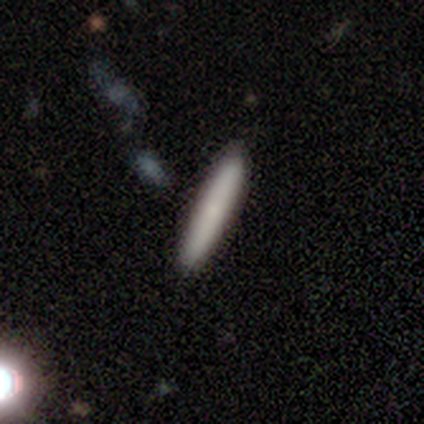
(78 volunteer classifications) Smooth or featured? smooth (81%)
How rounded? cigar-shaped (95%)
Merging? none (47%)